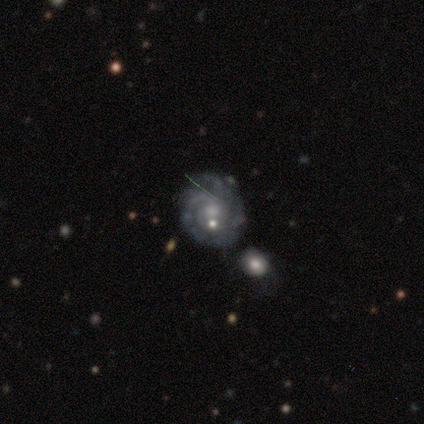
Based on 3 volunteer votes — A featured or disk galaxy (100%) with no bar (67%), tight (67%) spiral arms (100%) and a small central bulge (67%).

Vote fractions:
- Smooth or featured? featured or disk: 100% / smooth: 0% / star or artifact: 0%
- Edge-on disk? no: 100% / yes: 0%
- Bar? no: 67% / weak: 33% / strong: 0%
- Spiral arms? yes: 100% / no: 0%
- Spiral winding? tight: 67% / medium: 33% / loose: 0%
- Spiral arm count? can't tell: 67% / 2: 33% / 1: 0% / 3: 0% / 4: 0% / more than 4: 0%
- Bulge size? small: 67% / moderate: 33% / dominant: 0% / large: 0% / none: 0%
- Merging? none: 67% / minor disturbance: 33% / major disturbance: 0% / merger: 0%